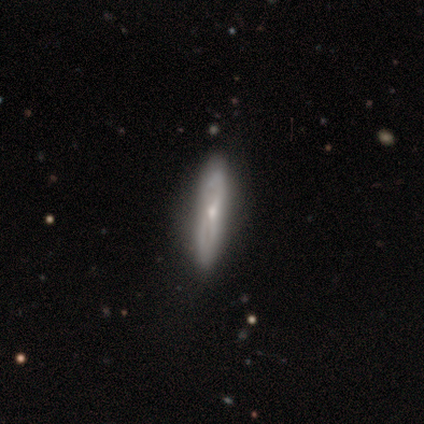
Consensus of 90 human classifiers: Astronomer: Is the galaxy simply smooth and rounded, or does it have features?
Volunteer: featured or disk — 58% (runner-up: smooth, 39%).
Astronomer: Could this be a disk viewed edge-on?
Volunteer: yes — 71%.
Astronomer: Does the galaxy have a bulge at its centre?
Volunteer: rounded — 68%.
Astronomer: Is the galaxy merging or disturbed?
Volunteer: none — 83%.